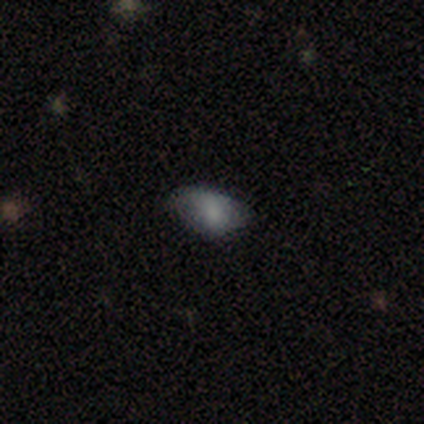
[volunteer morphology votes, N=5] Smooth or featured?
  - smooth: 100% *
  - featured or disk: 0%
  - star or artifact: 0%
How rounded?
  - in between: 100% *
  - round: 0%
  - cigar-shaped: 0%
Merging?
  - minor disturbance: 60% *
  - none: 40%
  - major disturbance: 0%
  - merger: 0%